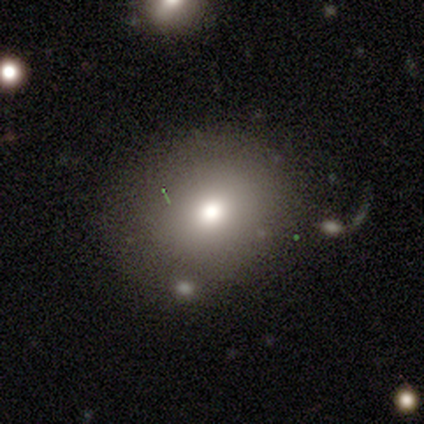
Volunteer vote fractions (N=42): smooth 76%, featured or disk 14%, star or artifact 10%. Down the decision tree: how rounded — round (62%); merging — none (63%).